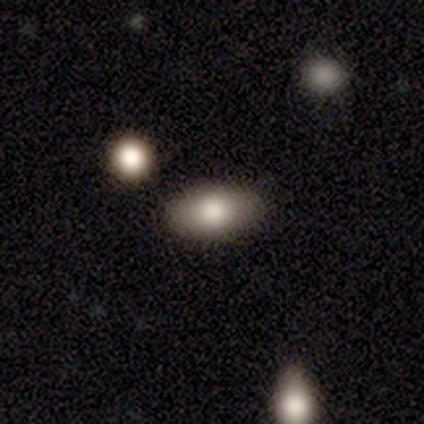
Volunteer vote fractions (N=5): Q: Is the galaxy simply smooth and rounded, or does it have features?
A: smooth — 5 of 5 (100%).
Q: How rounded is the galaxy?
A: in between — 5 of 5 (100%).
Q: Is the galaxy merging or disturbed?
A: none — 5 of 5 (100%).